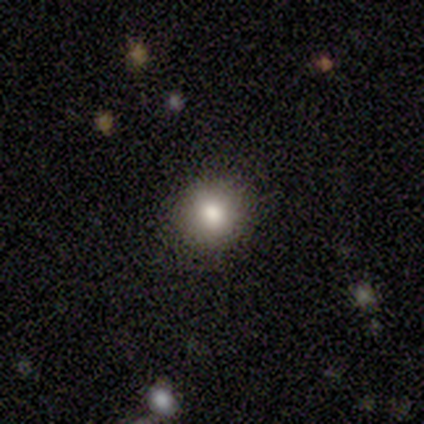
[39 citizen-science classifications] This appears to be a smooth galaxy with no disk features (74%) that is round (90%). Merging: none (91%).